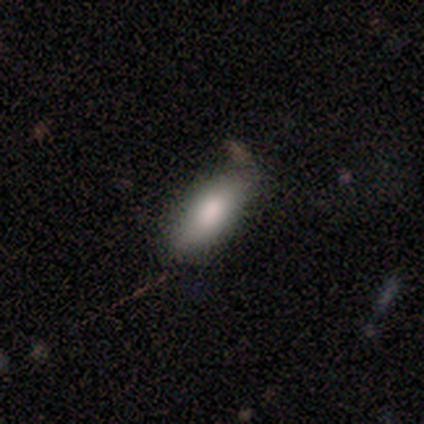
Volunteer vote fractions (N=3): A smooth galaxy with no disk features (67%) that is in between round and cigar-shaped (50%, tied with cigar-shaped). Merging: none (50%, tied with major disturbance).